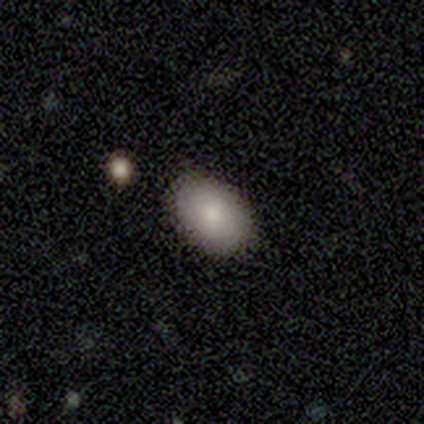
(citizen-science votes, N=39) This appears to be a smooth galaxy with no disk features (69%) that is in between round and cigar-shaped (85%). Merging: none (97%).